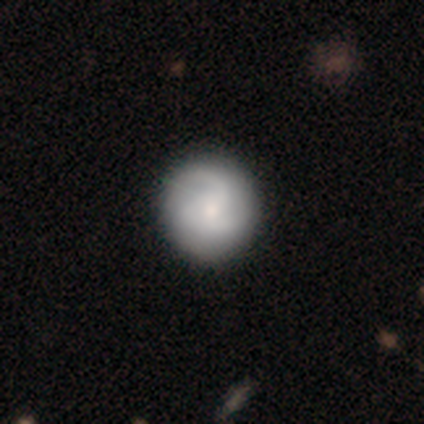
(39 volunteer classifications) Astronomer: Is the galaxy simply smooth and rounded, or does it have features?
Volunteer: featured or disk — 51% (runner-up: smooth, 46%).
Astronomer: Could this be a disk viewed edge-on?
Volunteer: no — 100%.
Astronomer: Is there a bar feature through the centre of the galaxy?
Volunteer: no — 75%.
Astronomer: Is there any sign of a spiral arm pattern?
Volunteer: yes — 95%.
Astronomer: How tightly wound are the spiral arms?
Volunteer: medium — 53%.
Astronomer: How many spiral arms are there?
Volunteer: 2 — 42% (runner-up: 3, 37%).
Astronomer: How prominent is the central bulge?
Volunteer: small — 60%.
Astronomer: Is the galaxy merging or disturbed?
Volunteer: none — 71%.